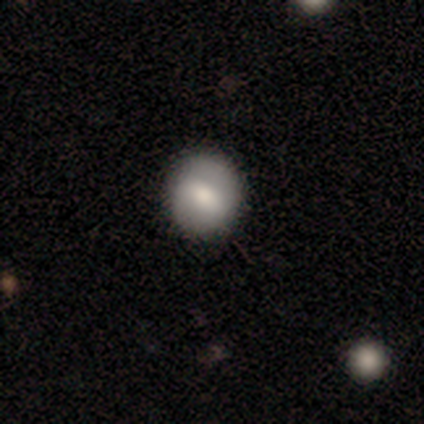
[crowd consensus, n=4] This appears to be a smooth galaxy with no disk features (100%) that is round (100%). Merging: none (100%).